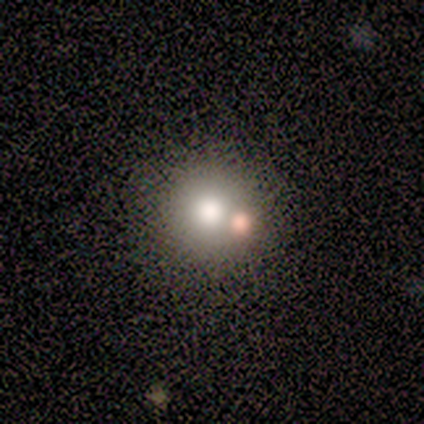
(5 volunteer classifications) This appears to be a smooth galaxy with no disk features (60%) that is round (100%). Merging: none (80%).